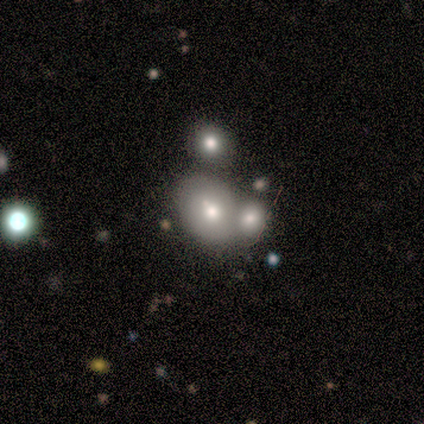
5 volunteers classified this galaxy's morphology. This appears to be a smooth galaxy with no disk features (60%) that is round (67%). Merging: merger (80%).